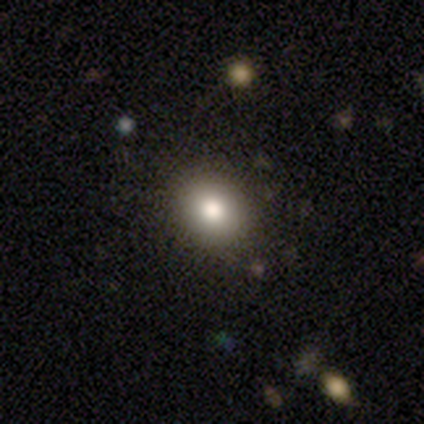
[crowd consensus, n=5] Morphology: type=smooth (80%); roundness=round (75%); merging=none (100%).